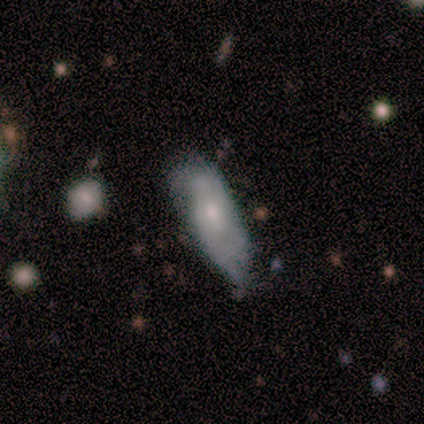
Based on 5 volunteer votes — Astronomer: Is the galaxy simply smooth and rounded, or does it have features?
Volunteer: smooth — 60%.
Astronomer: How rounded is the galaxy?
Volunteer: in between — 67%.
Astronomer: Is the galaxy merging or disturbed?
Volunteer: none — 50%, tied with minor disturbance at 50%.